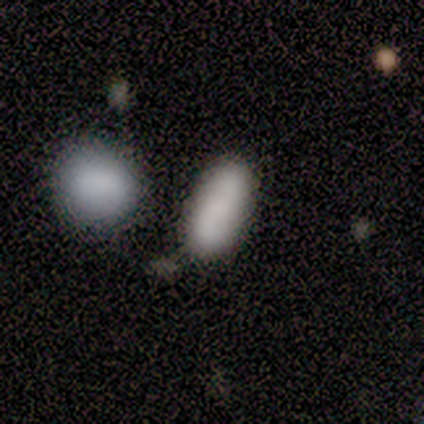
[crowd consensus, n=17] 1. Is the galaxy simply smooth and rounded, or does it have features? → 71% smooth, 18% featured or disk, 12% star or artifact.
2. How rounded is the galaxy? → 100% in between, 0% round, 0% cigar-shaped.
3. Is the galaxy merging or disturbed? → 73% none, 27% merger, 0% minor disturbance, 0% major disturbance.